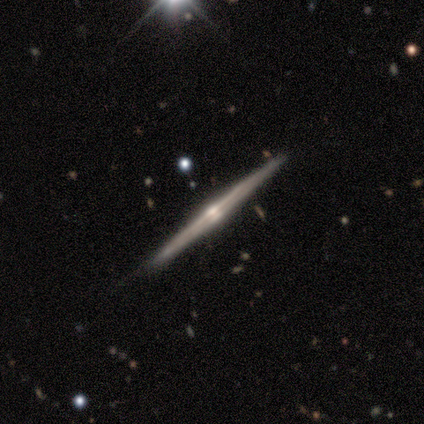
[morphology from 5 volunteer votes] This is clearly a featured or disk galaxy (80%). It is clearly viewed edge-on (100%). Edge-on bulge: clearly rounded (100%). Merging: clearly none (100%).